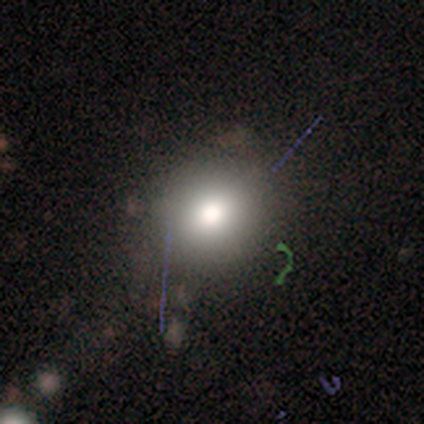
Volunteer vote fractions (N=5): Volunteers were most divided on "how rounded": in between: 67%, round: 33%, cigar-shaped: 0%. More confident: merging — none (100%); smooth or featured — smooth (60%).